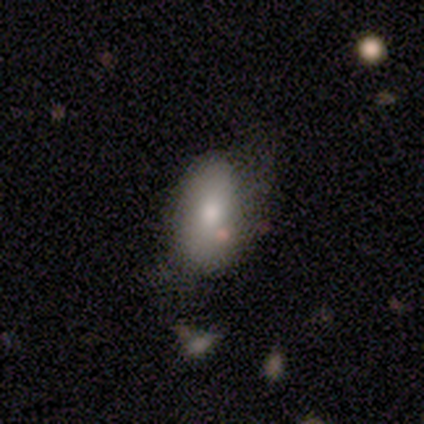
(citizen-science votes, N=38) Smooth or featured: smooth — 66% (featured or disk — 21%)
How rounded: in between — 100%
Merging: none — 39% (minor disturbance — 30%)